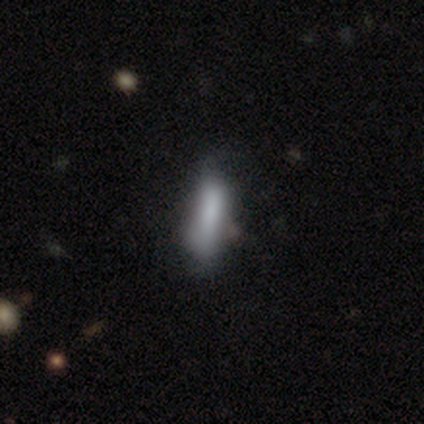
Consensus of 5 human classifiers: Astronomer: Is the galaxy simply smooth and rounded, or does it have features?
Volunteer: smooth — 60% (runner-up: featured or disk, 40%).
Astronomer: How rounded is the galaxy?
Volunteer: in between — 67%.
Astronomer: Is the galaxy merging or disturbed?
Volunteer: none — 40%, tied with minor disturbance at 40%.